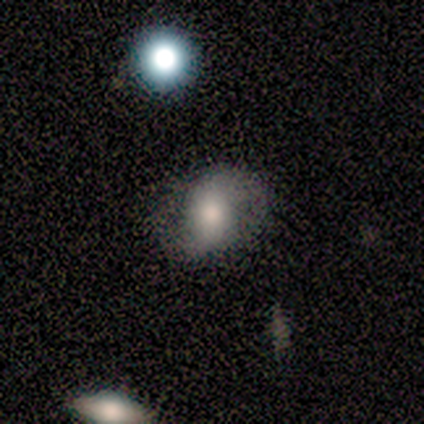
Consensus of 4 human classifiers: Smooth or featured? 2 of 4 (50%) said smooth. How rounded? 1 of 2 (50%, tied with in between) said round. Merging? 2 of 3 (67%) said none.